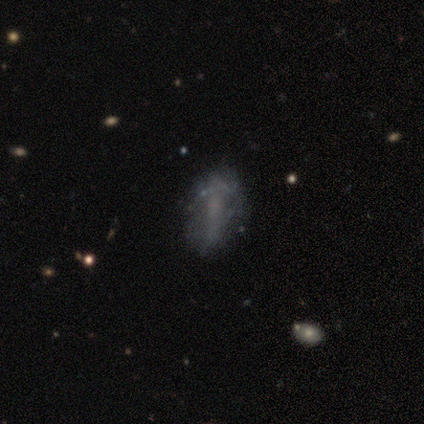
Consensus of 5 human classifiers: This appears to be a smooth galaxy with no disk features (60%) that is in between round and cigar-shaped (100%). Merging: none (75%).